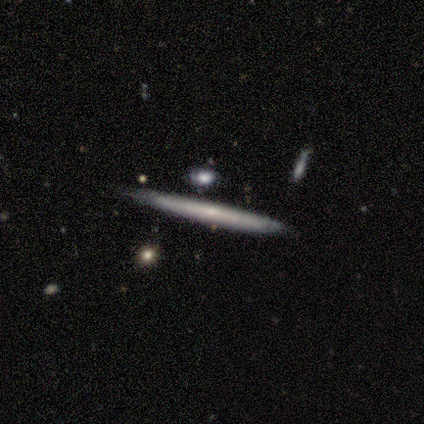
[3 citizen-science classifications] Smooth or featured?
  - smooth: 67% *
  - featured or disk: 33%
  - star or artifact: 0%
How rounded?
  - cigar-shaped: 100% *
  - round: 0%
  - in between: 0%
Merging?
  - none: 100% *
  - minor disturbance: 0%
  - major disturbance: 0%
  - merger: 0%